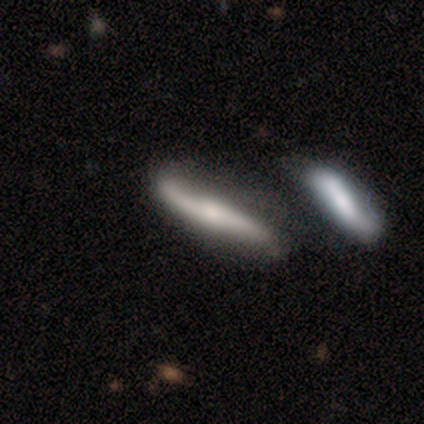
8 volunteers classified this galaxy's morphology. This is likely a featured or disk galaxy (75%). It is likely not viewed edge-on (67%). Bar: possibly weak (50%). Spiral arm pattern: clearly yes (100%). Spiral arm count: clearly 2 (100%). Spiral winding: clearly loose (100%). Central bulge: possibly moderate (50%, tied with small). Merging: likely none (75%).